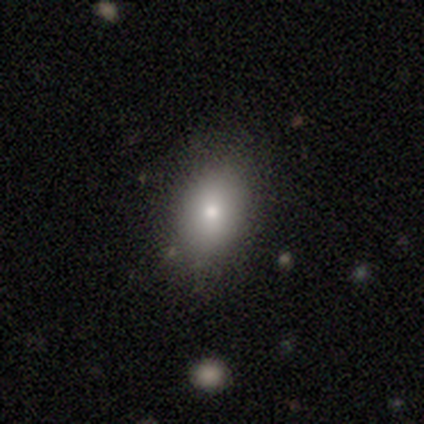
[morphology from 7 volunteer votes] Smooth or featured?
  - smooth: 100% *
  - featured or disk: 0%
  - star or artifact: 0%
How rounded?
  - in between: 57% *
  - round: 43%
  - cigar-shaped: 0%
Merging?
  - none: 86% *
  - minor disturbance: 14%
  - major disturbance: 0%
  - merger: 0%